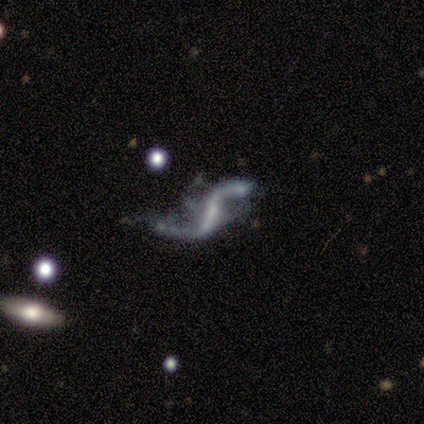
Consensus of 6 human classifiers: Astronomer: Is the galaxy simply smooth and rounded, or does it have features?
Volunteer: featured or disk — 100%.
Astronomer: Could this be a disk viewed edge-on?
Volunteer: no — 100%.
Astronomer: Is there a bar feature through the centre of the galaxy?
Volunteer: strong — 50%, tied with weak at 50%.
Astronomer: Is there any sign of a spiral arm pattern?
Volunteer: yes — 100%.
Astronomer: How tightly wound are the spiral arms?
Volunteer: loose — 100%.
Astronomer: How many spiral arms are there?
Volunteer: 2 — 100%.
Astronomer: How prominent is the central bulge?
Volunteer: small — 50% (runner-up: moderate, 33%).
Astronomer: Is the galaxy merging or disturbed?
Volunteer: minor disturbance — 67%.